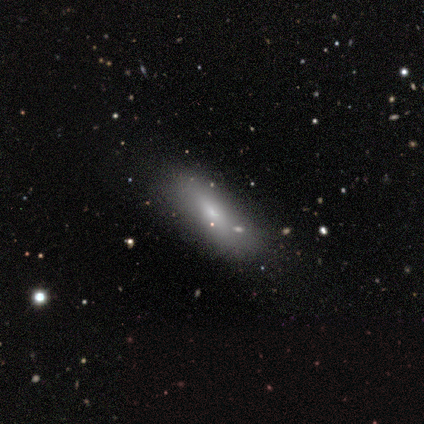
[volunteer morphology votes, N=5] Q: Smooth or featured?
A: smooth (80%); runner-up: featured or disk (20%)
Q: How rounded?
A: in between (100%)
Q: Merging?
A: none (60%); runner-up: minor disturbance (40%)